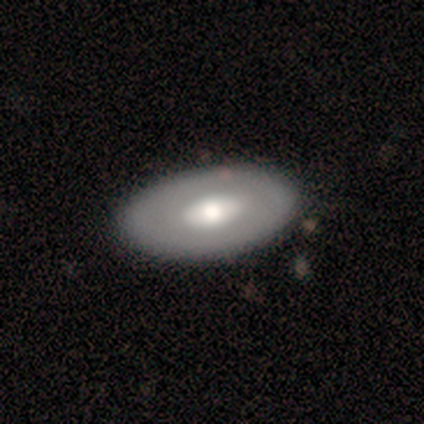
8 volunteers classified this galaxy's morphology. Smooth or featured?
  - smooth: 50% *
  - featured or disk: 38%
  - star or artifact: 12%
How rounded?
  - in between: 100% *
  - round: 0%
  - cigar-shaped: 0%
Merging?
  - none: 100% *
  - minor disturbance: 0%
  - major disturbance: 0%
  - merger: 0%